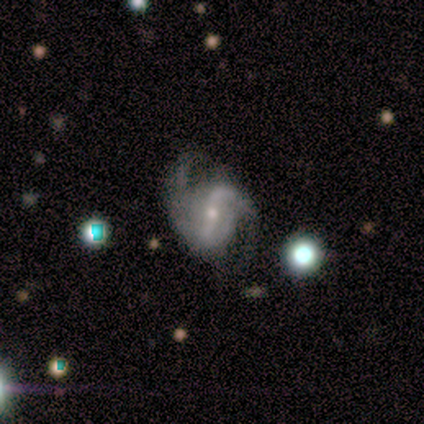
A featured or disk galaxy (100%) with a strong bar (40%, tied with weak), 2 (100%) loose (80%) spiral arms (100%) and a small central bulge (80%). Merging: none (60%).